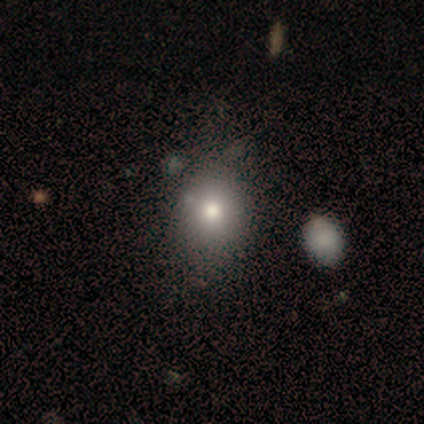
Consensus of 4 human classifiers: Q: Smooth or featured?
A: smooth (50%); tied with: star or artifact (50%)
Q: How rounded?
A: round (50%); tied with: in between (50%)
Q: Merging?
A: none (50%); tied with: minor disturbance (50%)